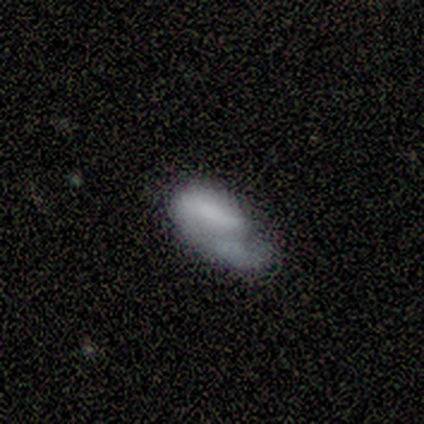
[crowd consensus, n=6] Smooth or featured? smooth (83%)
How rounded? in between (60%)
Merging? none (33%, tied with minor disturbance)